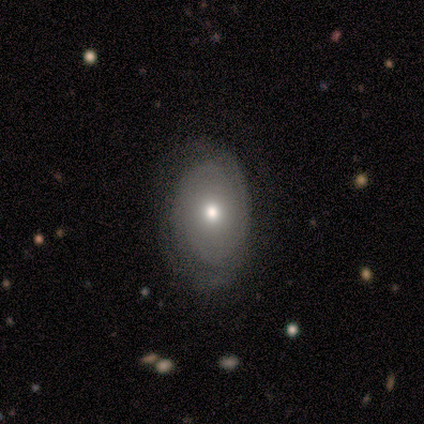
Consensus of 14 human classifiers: smooth-or-featured: featured or disk: 64% | smooth: 36% | star or artifact: 0%
  disk-edge-on: no: 100% | yes: 0%
    bar: no: 89% | strong: 11% | weak: 0%
    has-spiral-arms: yes: 78% | no: 22%
      spiral-winding: tight: 86% | medium: 14% | loose: 0%
      spiral-arm-count: can't tell: 43% | 2: 29% | 1: 14% | 4: 14% | 3: 0% | more than 4: 0%
    bulge-size: moderate: 56% | small: 33% | none: 11% | dominant: 0% | large: 0%
  merging: none: 93% | minor disturbance: 7% | major disturbance: 0% | merger: 0%